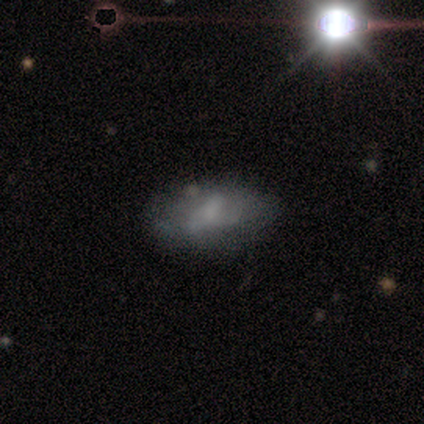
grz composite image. It shows a featured or disk galaxy (47%) with no bar (69%), no spiral arms (80%) and no central bulge (57%). Merging: none (34%).